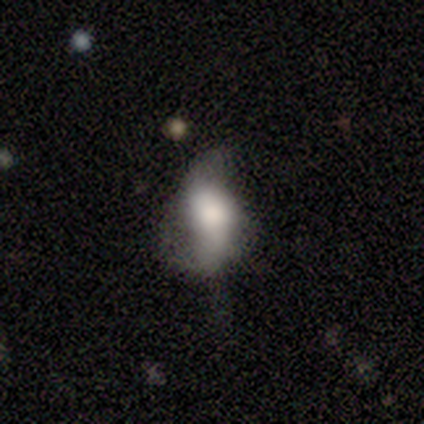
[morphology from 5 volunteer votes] featured or disk 60%, smooth 20%, star or artifact 20%. Down the decision tree: edge-on disk — no (100%); bar — strong (33%, tied with weak and no); spiral arms — yes (100%); spiral arm count — 2 (67%); spiral winding — loose (67%); bulge size — large (67%); merging — none (50%).